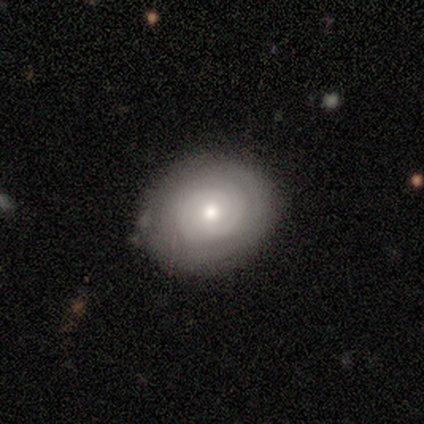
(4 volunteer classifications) smooth_or_featured: featured or disk (p=0.75) [alt: smooth p=0.25]
disk_edge_on: no (p=0.67) [alt: yes p=0.33]
bar: no (p=1.00)
has_spiral_arms: yes (p=1.00)
spiral_winding: tight (p=1.00)
spiral_arm_count: can't tell (p=1.00)
bulge_size: moderate (p=0.50) [tied with: small p=0.50]
merging: none (p=0.75) [alt: merger p=0.25]